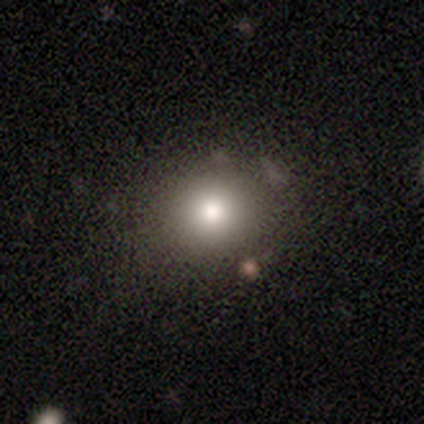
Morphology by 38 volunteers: Volunteers were most divided on "smooth or featured": smooth: 76%, featured or disk: 13%, star or artifact: 11%. More confident: merging — none (91%); how rounded — round (83%).